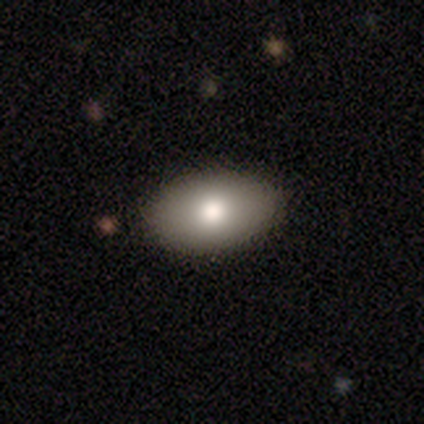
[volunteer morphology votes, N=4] Overall: smooth (100%). How rounded: in between (100%). Merging: none (100%).